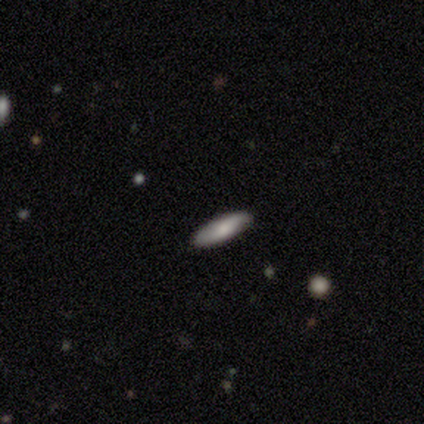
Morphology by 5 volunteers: Volunteers were most divided on "how rounded": cigar-shaped: 75%, in between: 25%, round: 0%. More confident: smooth or featured — smooth (80%); merging — none (80%).